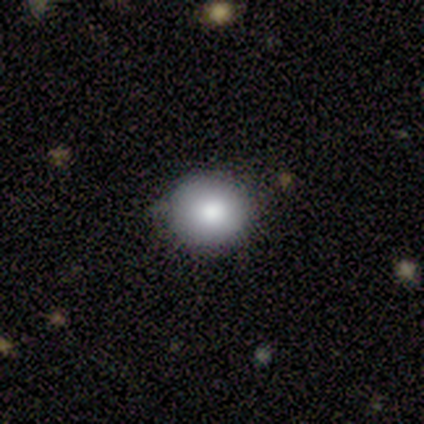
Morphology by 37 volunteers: This appears to be a smooth galaxy with no disk features (76%) that is round (96%). Merging: none (88%).